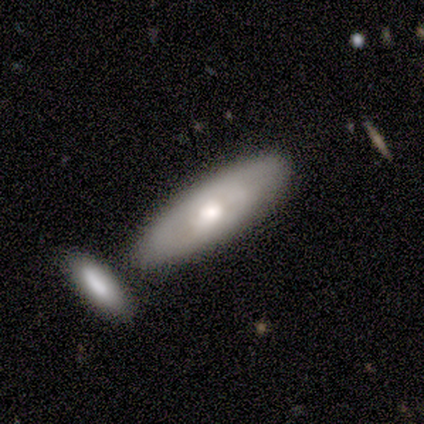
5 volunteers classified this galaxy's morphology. This is likely a featured or disk galaxy (60%). It is clearly not viewed edge-on (100%). Bar: clearly no (100%). Spiral arm pattern: clearly no (100%). Central bulge: likely moderate (67%). Merging: likely none (60%).